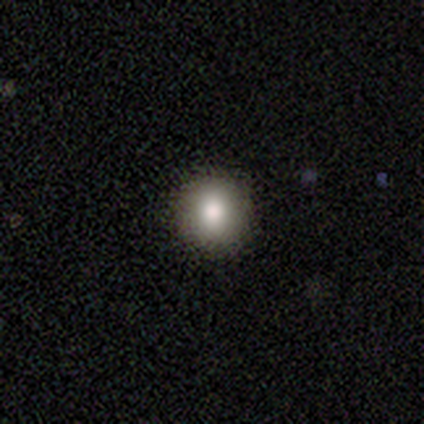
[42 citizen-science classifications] Morphology: type=smooth (74%); roundness=round (90%); merging=none (90%).